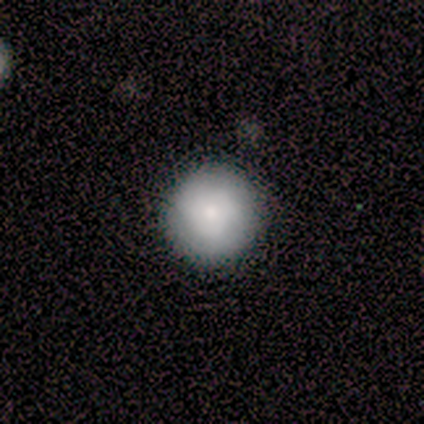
This is clearly a smooth galaxy (80%). How rounded: clearly round (100%). Merging: clearly none (100%).